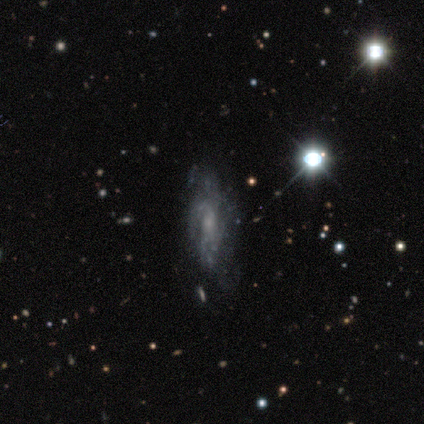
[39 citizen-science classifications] A featured or disk galaxy (74%) with no bar (85%), loose (44%) spiral arms (67%) and a small central bulge (63%). Merging: none (48%).